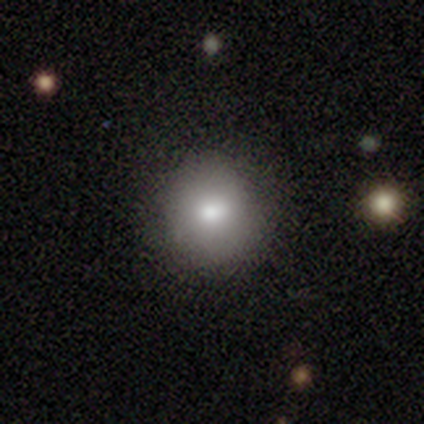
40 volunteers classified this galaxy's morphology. type=smooth (78%); roundness=round (94%); merging=none (92%).